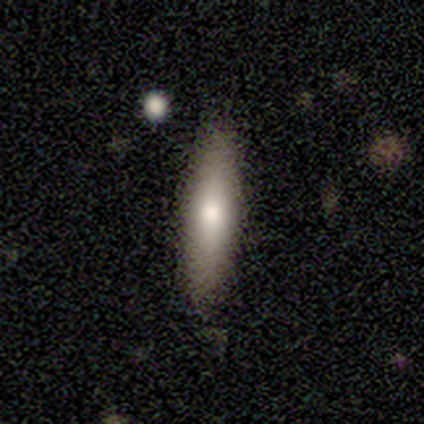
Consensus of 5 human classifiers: Volunteers were most divided on "how rounded": cigar-shaped: 75%, in between: 25%, round: 0%. More confident: merging — none (100%); smooth or featured — smooth (80%).